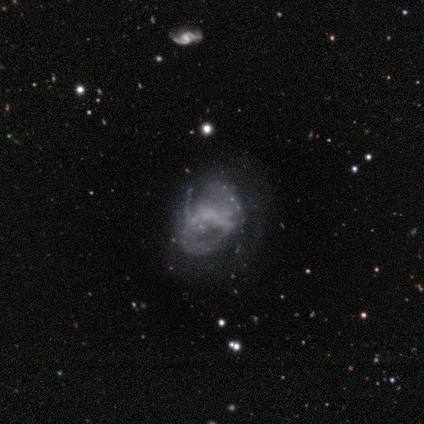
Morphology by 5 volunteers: Volunteers were most divided on "smooth or featured": featured or disk: 60%, smooth: 40%, star or artifact: 0%. More confident: edge-on disk — no (100%); bulge size — none (100%); bar — no (67%); spiral arms — no (67%); merging — none (60%).